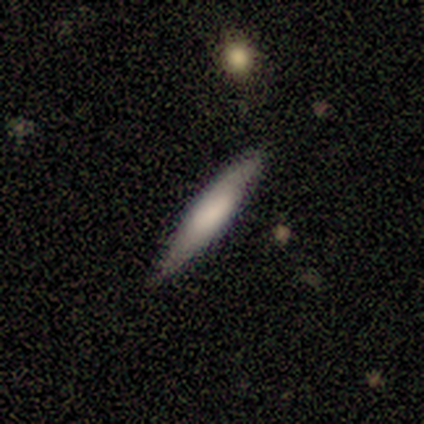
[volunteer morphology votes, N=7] This appears to be a smooth galaxy with no disk features (71%) that is cigar-shaped (100%). Merging: none (86%).